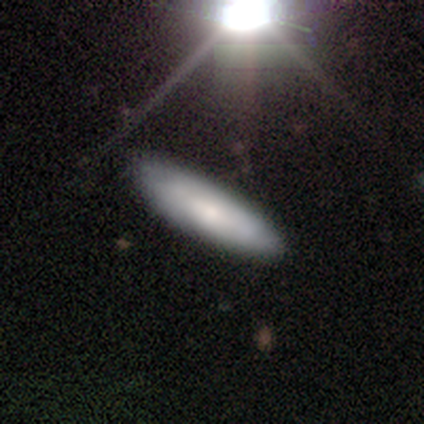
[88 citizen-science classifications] Volunteers were most divided on "smooth or featured": smooth: 58%, featured or disk: 32%, star or artifact: 10%. More confident: merging — none (86%); how rounded — cigar-shaped (67%).